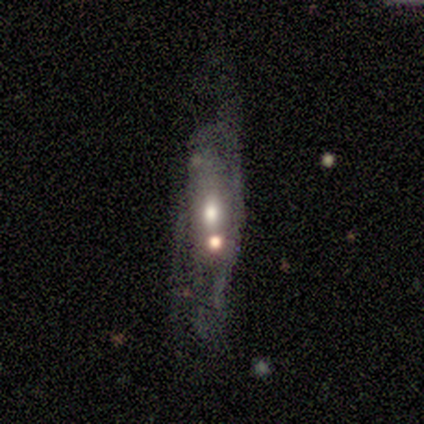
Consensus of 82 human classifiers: This appears to be a featured or disk galaxy (65%) with no bar (81%), no spiral arms (51%) and a moderate central bulge (79%). Merging: major disturbance (37%).